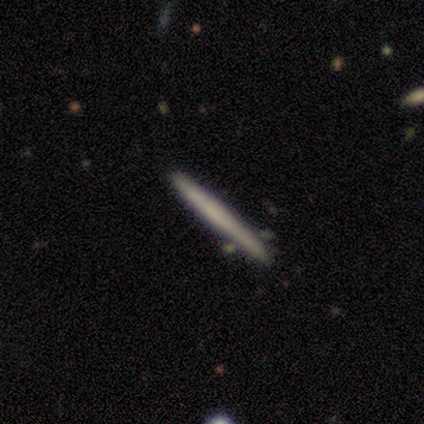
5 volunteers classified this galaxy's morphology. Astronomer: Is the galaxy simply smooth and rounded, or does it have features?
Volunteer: featured or disk — 60% (runner-up: smooth, 40%).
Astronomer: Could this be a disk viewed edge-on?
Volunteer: yes — 100%.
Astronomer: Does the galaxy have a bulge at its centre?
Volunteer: none — 100%.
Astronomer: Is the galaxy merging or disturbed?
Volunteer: none — 60% (runner-up: minor disturbance, 40%).